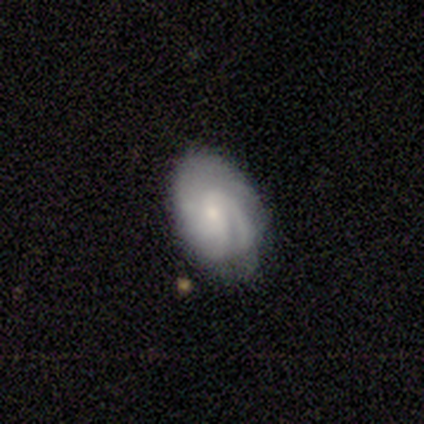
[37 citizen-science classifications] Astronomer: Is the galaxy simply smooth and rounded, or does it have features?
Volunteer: featured or disk — 78%.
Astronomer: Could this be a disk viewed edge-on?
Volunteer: no — 100%.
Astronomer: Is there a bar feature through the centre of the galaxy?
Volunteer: no — 59% (runner-up: weak, 38%).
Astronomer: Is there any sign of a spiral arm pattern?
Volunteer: yes — 97%.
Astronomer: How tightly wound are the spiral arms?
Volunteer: tight — 57% (runner-up: medium, 32%).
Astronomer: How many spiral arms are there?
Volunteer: can't tell — 54%.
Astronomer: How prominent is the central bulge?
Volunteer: small — 72%.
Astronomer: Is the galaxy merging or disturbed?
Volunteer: none — 69%.